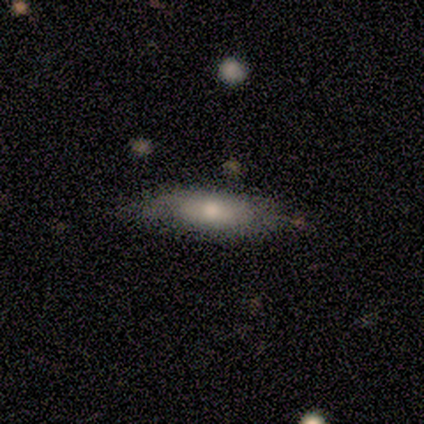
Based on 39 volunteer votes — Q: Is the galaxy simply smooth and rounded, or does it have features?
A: smooth — 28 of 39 (72%).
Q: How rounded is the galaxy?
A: in between — 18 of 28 (64%).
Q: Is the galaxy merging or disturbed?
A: none — 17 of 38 (45%).